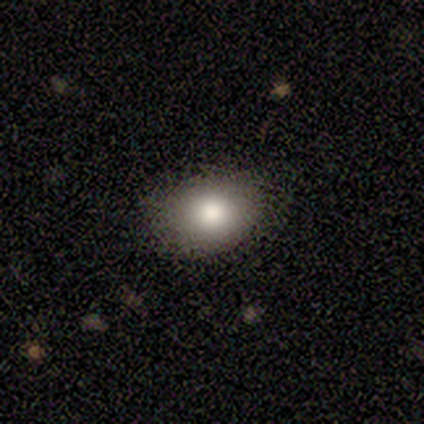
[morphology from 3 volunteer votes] Q: Smooth or featured?
A: smooth (67%); runner-up: featured or disk (33%)
Q: How rounded?
A: round (100%)
Q: Merging?
A: none (67%); runner-up: major disturbance (33%)